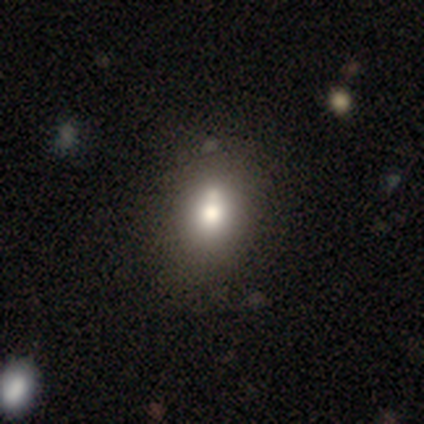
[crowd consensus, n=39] A smooth galaxy with no disk features (69%) that is in between round and cigar-shaped (56%). Merging: none (49%).